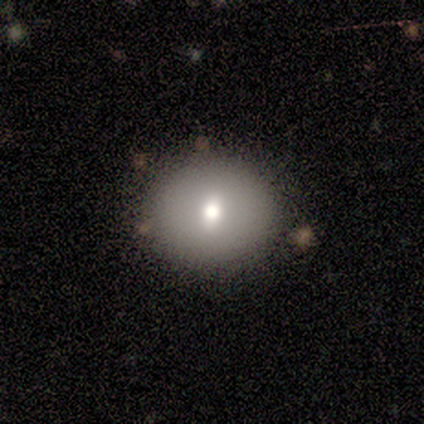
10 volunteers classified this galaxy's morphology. Smooth or featured: smooth — 60% (featured or disk — 40%)
How rounded: round — 67% (in between — 33%)
Merging: none — 100%